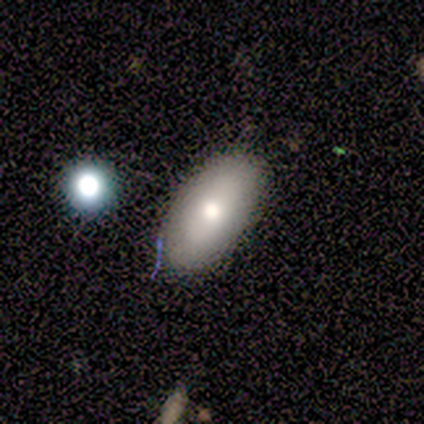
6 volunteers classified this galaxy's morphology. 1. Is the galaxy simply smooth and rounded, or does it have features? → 50% featured or disk, 33% smooth, 17% star or artifact.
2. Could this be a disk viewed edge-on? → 67% no, 33% yes.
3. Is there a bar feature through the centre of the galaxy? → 100% no, 0% strong, 0% weak.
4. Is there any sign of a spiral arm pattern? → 100% no, 0% yes.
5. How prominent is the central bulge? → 50% large (tied), 50% small (tied), 0% dominant, 0% moderate, 0% none.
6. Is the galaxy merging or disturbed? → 80% none, 20% minor disturbance, 0% major disturbance, 0% merger.